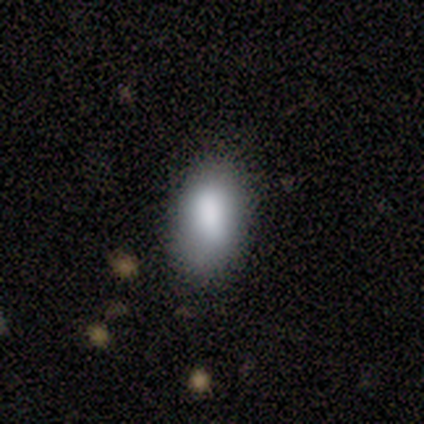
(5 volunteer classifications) smooth_or_featured: smooth (p=0.80) [alt: star or artifact p=0.20]
how_rounded: in between (p=1.00)
merging: none (p=0.75) [alt: minor disturbance p=0.25]